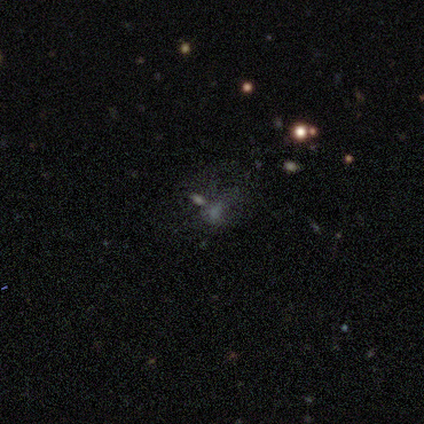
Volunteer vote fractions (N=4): This appears to be a featured or disk galaxy (50%, tied with star or artifact) with no bar (100%), no spiral arms (100%) and no central bulge (100%). Merging: none (50%, tied with major disturbance).